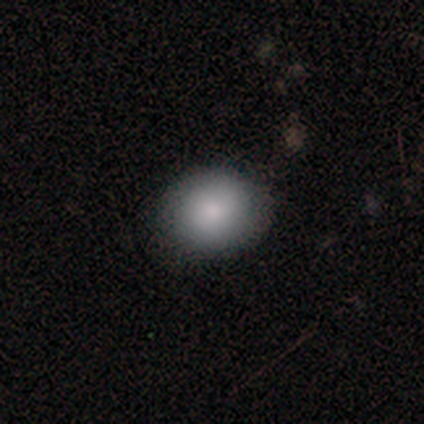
Smooth or featured?
  - smooth: 80% *
  - star or artifact: 20%
  - featured or disk: 0%
How rounded?
  - in between: 100% *
  - round: 0%
  - cigar-shaped: 0%
Merging?
  - none: 75% *
  - minor disturbance: 25%
  - major disturbance: 0%
  - merger: 0%